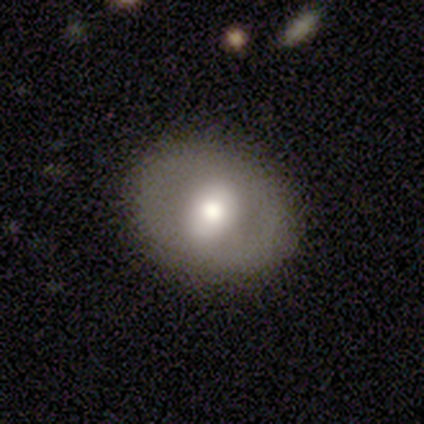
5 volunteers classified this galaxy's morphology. Volunteers were most divided on "smooth or featured": smooth: 60%, featured or disk: 40%, star or artifact: 0%. More confident: merging — none (100%); how rounded — round (67%).